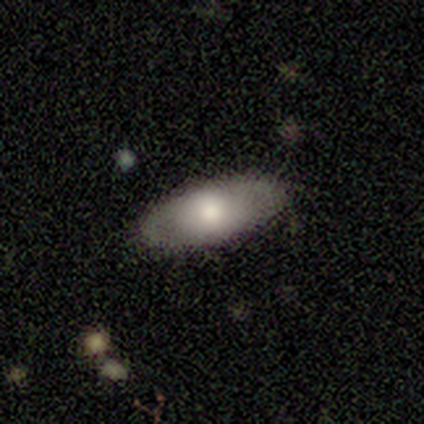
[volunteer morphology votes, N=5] Q: Smooth or featured?
A: smooth (80%); runner-up: featured or disk (20%)
Q: How rounded?
A: in between (75%); runner-up: cigar-shaped (25%)
Q: Merging?
A: none (100%)